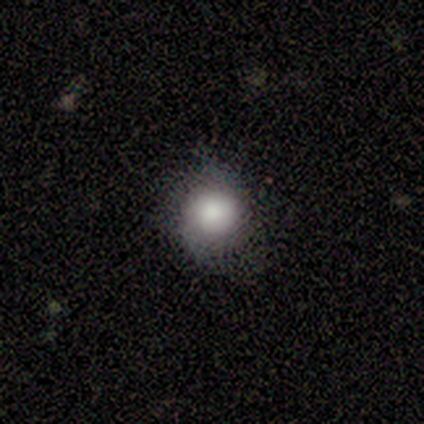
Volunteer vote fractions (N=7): Smooth or featured? 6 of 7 (86%) said smooth. How rounded? 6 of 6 (100%) said round. Merging? 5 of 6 (83%) said none.